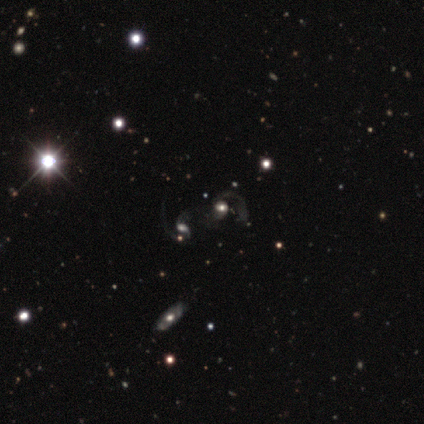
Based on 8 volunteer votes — featured or disk 75%, smooth 12%, star or artifact 12%. Down the decision tree: edge-on disk — no (100%); bar — no (83%); spiral arms — yes (67%); spiral arm count — 2 (50%); spiral winding — medium (75%); bulge size — moderate (50%); merging — merger (57%).